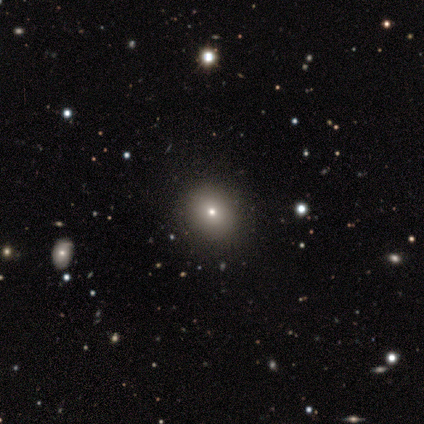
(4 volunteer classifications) smooth-or-featured: smooth: 75% | star or artifact: 25% | featured or disk: 0%
  how-rounded: round: 100% | in between: 0% | cigar-shaped: 0%
  merging: none: 100% | minor disturbance: 0% | major disturbance: 0% | merger: 0%